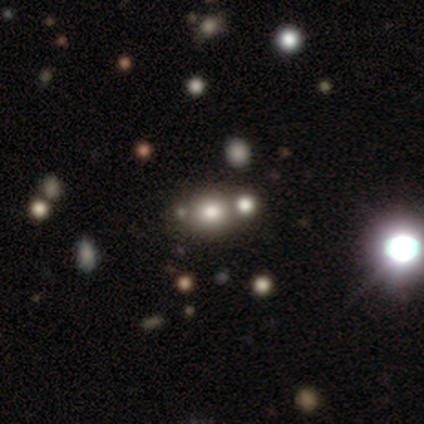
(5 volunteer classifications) This is likely a featured or disk galaxy (60%). It is clearly not viewed edge-on (100%). Bar: clearly no (100%). Spiral arm pattern: clearly no (100%). Central bulge: clearly large (100%). Merging: likely merger (75%).